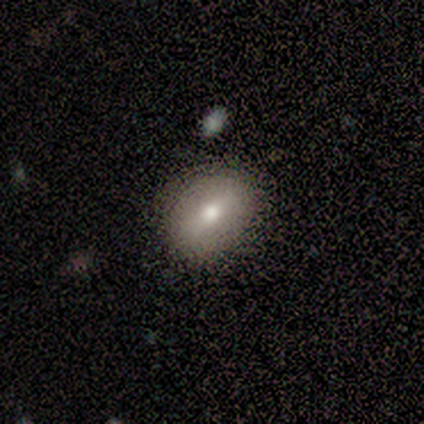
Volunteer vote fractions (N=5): smooth-or-featured: smooth: 100% | featured or disk: 0% | star or artifact: 0%
  how-rounded: in between: 60% | round: 40% | cigar-shaped: 0%
  merging: none: 100% | minor disturbance: 0% | major disturbance: 0% | merger: 0%